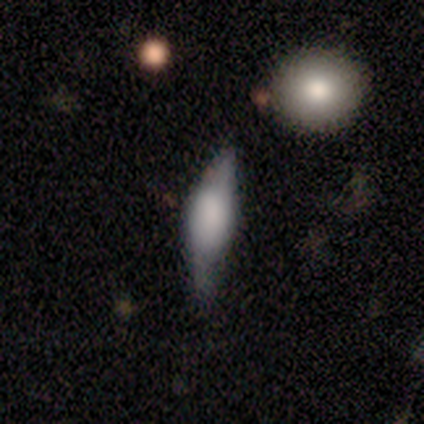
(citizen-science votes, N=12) smooth-or-featured: smooth: 58% | featured or disk: 42% | star or artifact: 0%
  how-rounded: in between: 71% | cigar-shaped: 29% | round: 0%
  merging: minor disturbance: 67% | none: 33% | major disturbance: 0% | merger: 0%